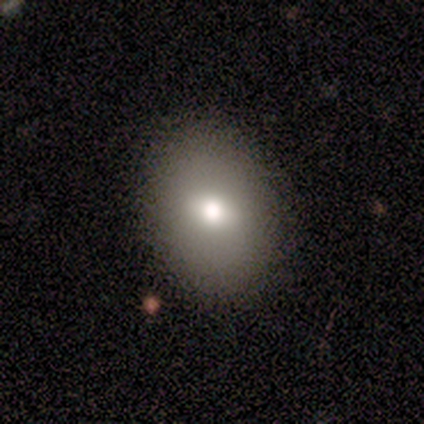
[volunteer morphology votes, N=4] A smooth galaxy with no disk features (50%, tied with featured or disk) that is round (50%, tied with in between).

Vote fractions:
- Smooth or featured? smooth: 50% (tied) / featured or disk: 50% (tied) / star or artifact: 0%
- How rounded? round: 50% (tied) / in between: 50% (tied) / cigar-shaped: 0%
- Merging? none: 100% / minor disturbance: 0% / major disturbance: 0% / merger: 0%